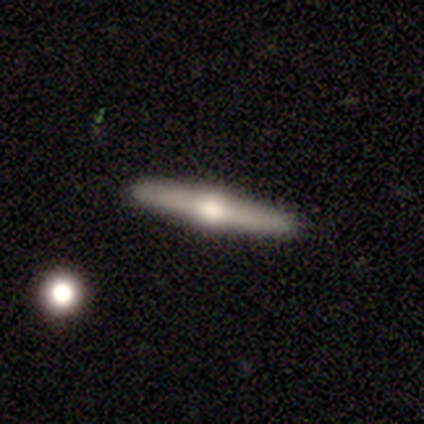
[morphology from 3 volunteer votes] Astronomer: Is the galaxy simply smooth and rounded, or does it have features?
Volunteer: featured or disk — 67%.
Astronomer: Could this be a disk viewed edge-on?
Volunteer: yes — 100%.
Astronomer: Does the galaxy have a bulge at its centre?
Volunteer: rounded — 100%.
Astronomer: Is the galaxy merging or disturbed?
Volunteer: none — 100%.